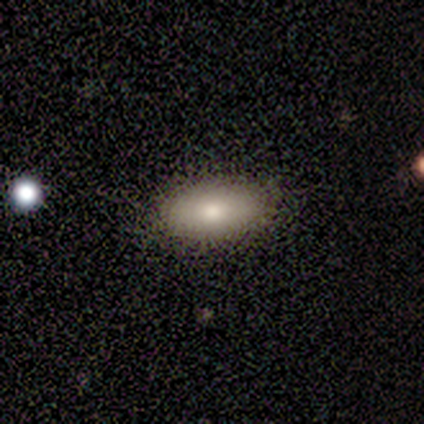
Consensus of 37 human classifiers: smooth-or-featured: smooth: 70% | featured or disk: 16% | star or artifact: 14%
  how-rounded: in between: 96% | cigar-shaped: 4% | round: 0%
  merging: none: 81% | minor disturbance: 12% | major disturbance: 3% | merger: 3%